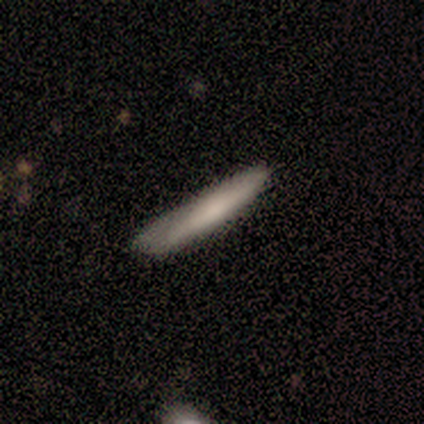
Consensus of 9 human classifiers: Overall: smooth (67%; featured or disk 33%). How rounded: cigar-shaped (100%). Merging: none (67%; minor disturbance 33%).